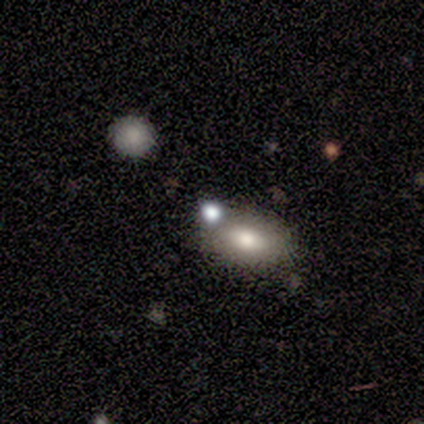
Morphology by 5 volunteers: A smooth galaxy with no disk features (100%) that is in between round and cigar-shaped (80%).

Vote fractions:
- Smooth or featured? smooth: 100% / featured or disk: 0% / star or artifact: 0%
- How rounded? in between: 80% / round: 20% / cigar-shaped: 0%
- Merging? none: 60% / minor disturbance: 40% / major disturbance: 0% / merger: 0%